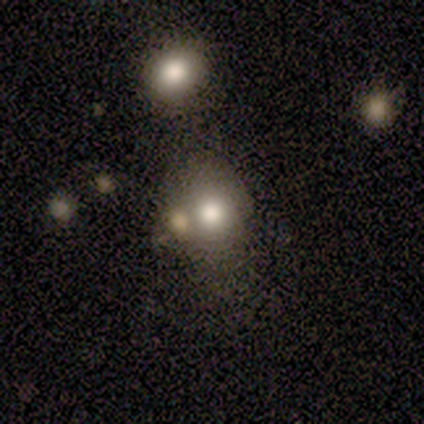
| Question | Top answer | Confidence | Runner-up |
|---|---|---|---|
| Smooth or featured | smooth | 100% | — |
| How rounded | round | 75% | in between (25%) |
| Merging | none | 75% | major disturbance (25%) |